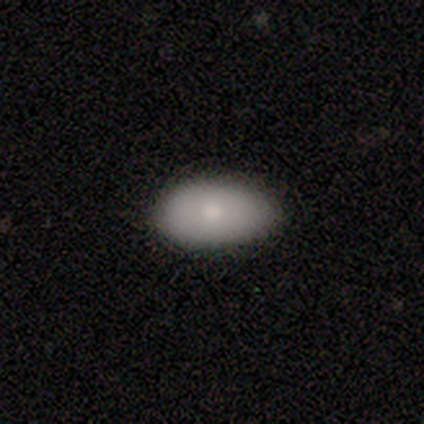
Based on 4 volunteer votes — Smooth or featured: smooth — 100%
How rounded: in between — 100%
Merging: none — 75% (major disturbance — 25%)